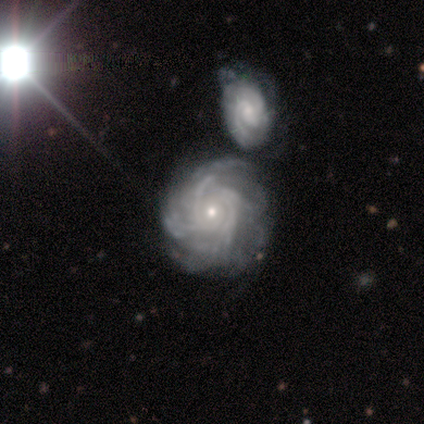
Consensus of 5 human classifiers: Smooth or featured? 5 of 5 (100%) said featured or disk. Edge-on disk? 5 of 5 (100%) said no. Bar? 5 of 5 (100%) said no. Spiral arms? 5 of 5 (100%) said yes. Spiral winding? 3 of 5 (60%) said tight. Spiral arm count? 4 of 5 (80%) said can't tell. Bulge size? 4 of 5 (80%) said small. Merging? 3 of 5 (60%) said none.